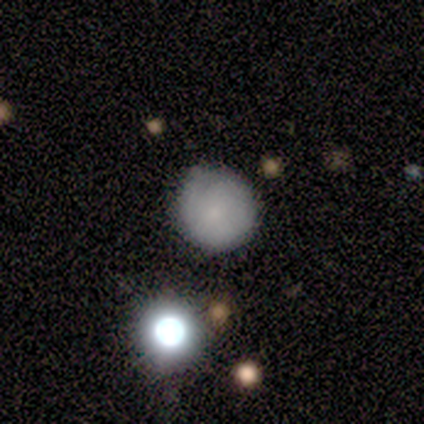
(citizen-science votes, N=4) smooth-or-featured: smooth: 50% (tied) | star or artifact: 50% (tied) | featured or disk: 0%
  how-rounded: round: 100% | in between: 0% | cigar-shaped: 0%
  merging: none: 50% (tied) | major disturbance: 50% (tied) | minor disturbance: 0% | merger: 0%